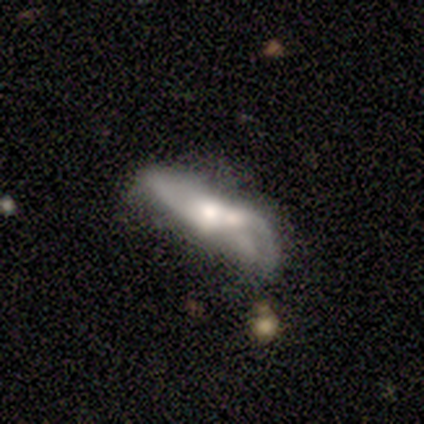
Morphology: type=featured or disk (100%); edge-on=no (60%); bar=no (67%); spiral arms=no (67%); bulge=moderate (100%); merging=none (40%, tied with merger).